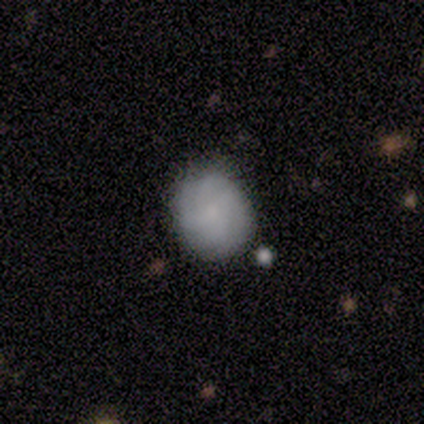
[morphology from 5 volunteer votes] A smooth galaxy with no disk features (60%) that is round (67%). Merging: none (100%).